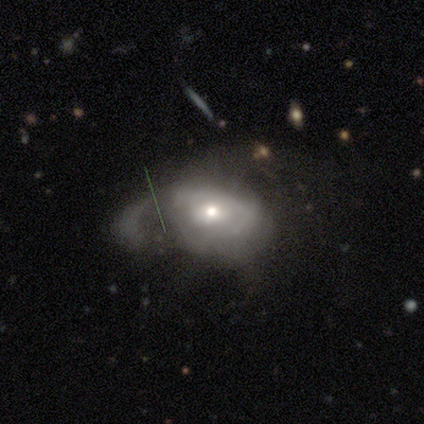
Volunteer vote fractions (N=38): This is likely a featured or disk galaxy (71%). It is clearly not viewed edge-on (96%). Bar: likely no (77%). Spiral arm pattern: possibly yes (54%). Spiral arm count: possibly can't tell (50%). Spiral winding: likely medium (64%). Central bulge: possibly moderate (58%). Merging: likely major disturbance (61%).